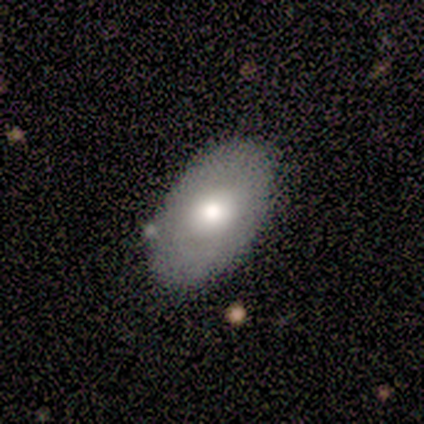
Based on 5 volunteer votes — smooth-or-featured: featured or disk: 60% | smooth: 40% | star or artifact: 0%
  disk-edge-on: no: 67% | yes: 33%
    bar: no: 100% | strong: 0% | weak: 0%
    has-spiral-arms: no: 100% | yes: 0%
    bulge-size: moderate: 100% | dominant: 0% | large: 0% | small: 0% | none: 0%
  merging: none: 80% | minor disturbance: 20% | major disturbance: 0% | merger: 0%